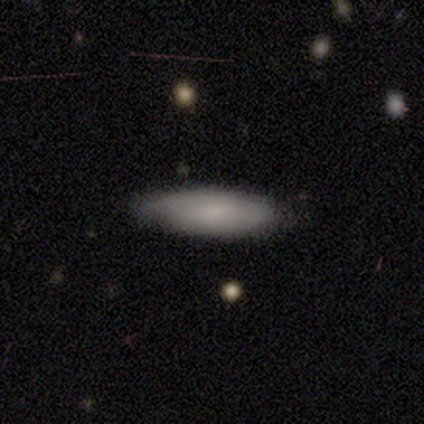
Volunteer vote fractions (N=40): This is clearly a smooth galaxy (80%). How rounded: likely in between (69%). Merging: possibly none (51%).